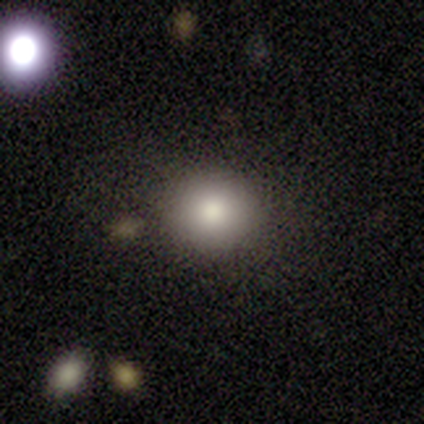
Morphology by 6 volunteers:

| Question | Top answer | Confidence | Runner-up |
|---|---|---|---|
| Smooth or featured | smooth | 100% | — |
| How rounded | round | 83% | in between (17%) |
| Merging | none | 50% | tied: minor disturbance (50%) |